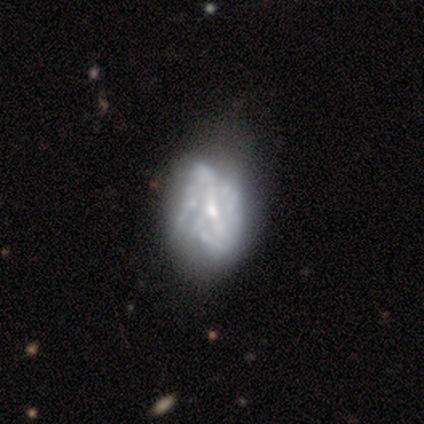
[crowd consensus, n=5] A featured or disk galaxy (40%, tied with star or artifact) with no bar (100%), no spiral arms (100%) and a moderate central bulge (50%, tied with small). Merging: none (67%).